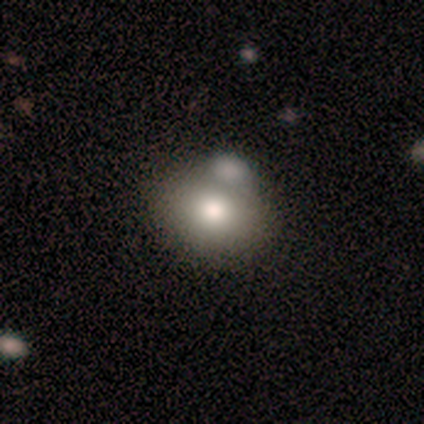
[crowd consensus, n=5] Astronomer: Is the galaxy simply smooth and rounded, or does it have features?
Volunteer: smooth — 100%.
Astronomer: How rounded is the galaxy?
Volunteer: in between — 60% (runner-up: round, 40%).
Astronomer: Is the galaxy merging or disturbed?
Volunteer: merger — 60%.